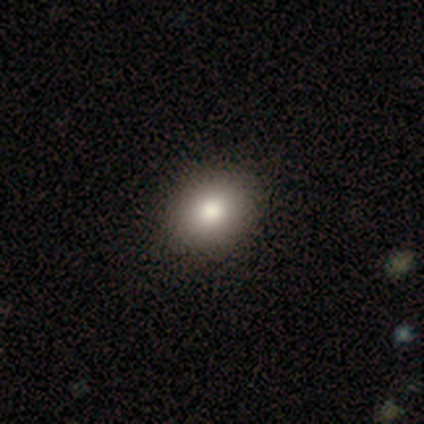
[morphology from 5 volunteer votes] smooth-or-featured: smooth: 80% | featured or disk: 20% | star or artifact: 0%
  how-rounded: in between: 75% | round: 25% | cigar-shaped: 0%
  merging: none: 80% | minor disturbance: 20% | major disturbance: 0% | merger: 0%